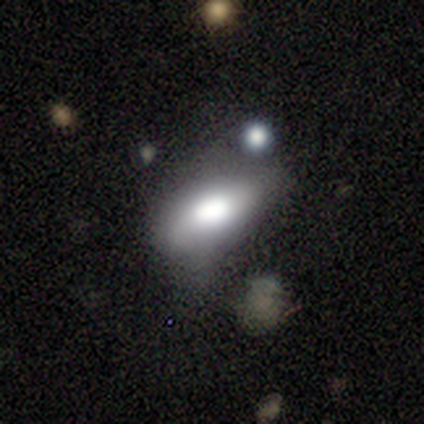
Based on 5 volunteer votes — Smooth or featured?
  - smooth: 80% *
  - featured or disk: 20%
  - star or artifact: 0%
How rounded?
  - in between: 100% *
  - round: 0%
  - cigar-shaped: 0%
Merging?
  - minor disturbance: 80% *
  - none: 20%
  - major disturbance: 0%
  - merger: 0%